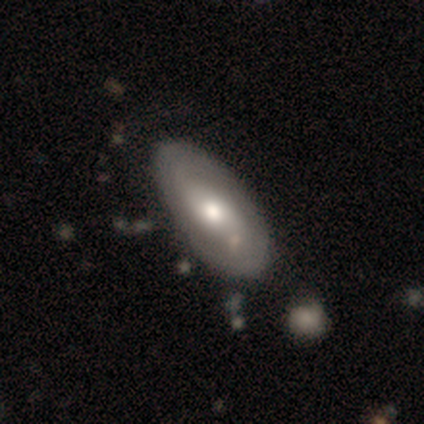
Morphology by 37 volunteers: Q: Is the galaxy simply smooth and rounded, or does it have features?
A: featured or disk — 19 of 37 (51%).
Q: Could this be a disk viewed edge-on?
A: no — 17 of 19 (89%).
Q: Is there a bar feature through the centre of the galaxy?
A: no — 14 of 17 (82%).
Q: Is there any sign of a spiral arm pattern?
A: no — 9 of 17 (53%).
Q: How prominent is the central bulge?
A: moderate — 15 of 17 (88%).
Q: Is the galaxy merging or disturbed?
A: none — 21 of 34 (62%).